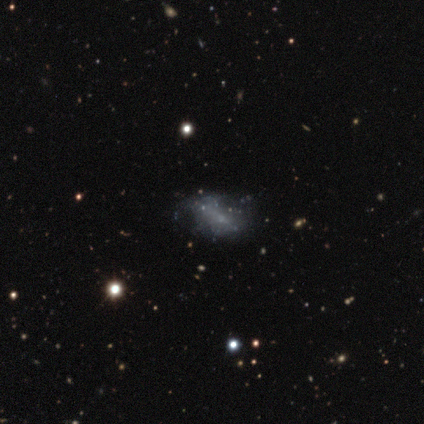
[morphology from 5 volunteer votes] Volunteers were most divided on "smooth or featured" (2-way tie): smooth: 40%, featured or disk: 40%, star or artifact: 20%. More confident: how rounded — in between (100%); merging — minor disturbance (75%).